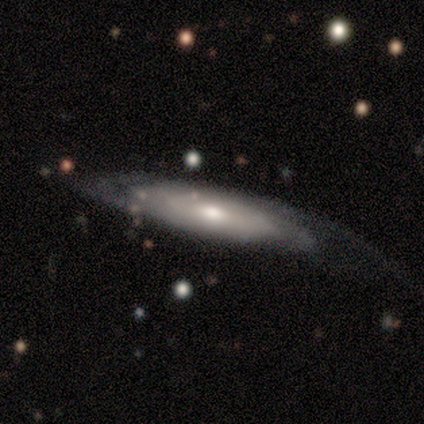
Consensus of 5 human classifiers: Q: Smooth or featured?
A: featured or disk (100%)
Q: Edge-on disk?
A: yes (60%); runner-up: no (40%)
Q: Edge-on bulge?
A: rounded (100%)
Q: Merging?
A: none (40%); tied with: minor disturbance (40%)